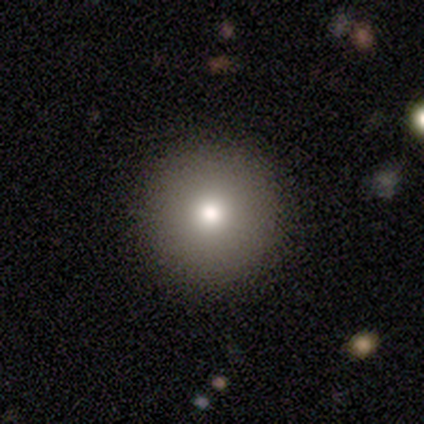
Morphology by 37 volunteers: Smooth or featured? 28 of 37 (76%) said smooth. How rounded? 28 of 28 (100%) said round. Merging? 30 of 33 (91%) said none.